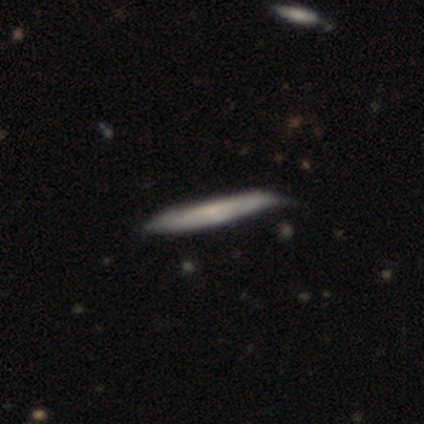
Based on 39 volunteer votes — Smooth or featured?
  - smooth: 49% *
  - featured or disk: 46%
  - star or artifact: 5%
How rounded?
  - cigar-shaped: 100% *
  - round: 0%
  - in between: 0%
Merging?
  - none: 32% *
  - minor disturbance: 22%
  - major disturbance: 0%
  - merger: 0%